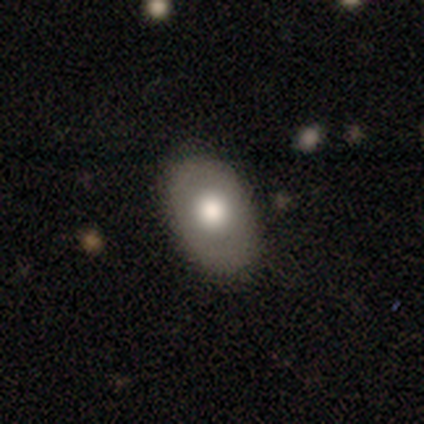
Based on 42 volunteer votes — Smooth or featured?
  - smooth: 60% *
  - featured or disk: 26%
  - star or artifact: 14%
How rounded?
  - in between: 88% *
  - round: 12%
  - cigar-shaped: 0%
Merging?
  - none: 86% *
  - minor disturbance: 11%
  - merger: 3%
  - major disturbance: 0%